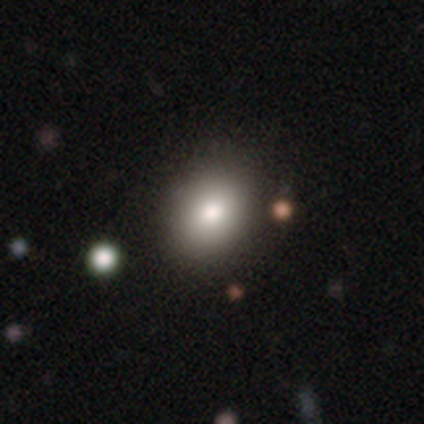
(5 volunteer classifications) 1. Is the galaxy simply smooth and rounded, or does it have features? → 80% smooth, 20% featured or disk, 0% star or artifact.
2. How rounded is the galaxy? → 75% in between, 25% round, 0% cigar-shaped.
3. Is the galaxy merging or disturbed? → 80% none, 20% minor disturbance, 0% major disturbance, 0% merger.